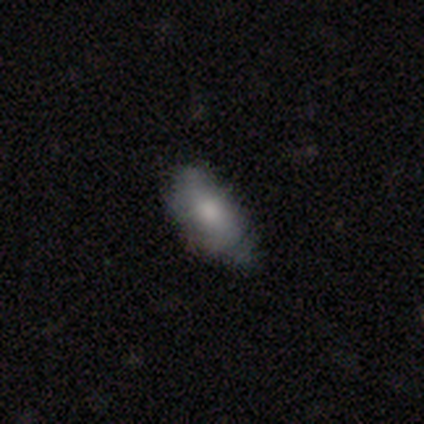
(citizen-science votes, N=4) A smooth galaxy with no disk features (50%) that is in between round and cigar-shaped (100%). Merging: none (100%).